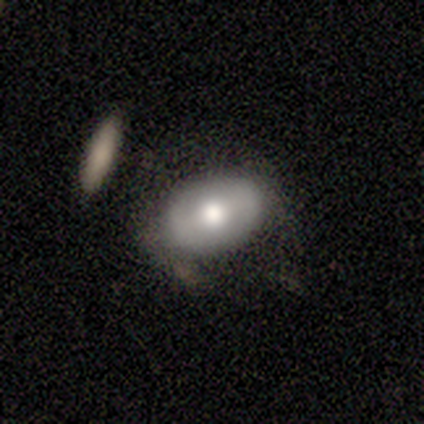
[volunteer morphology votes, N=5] Smooth or featured?
  - featured or disk: 60% *
  - smooth: 40%
  - star or artifact: 0%
Edge-on disk?
  - yes: 67% *
  - no: 33%
Edge-on bulge?
  - boxy: 50% * (tied)
  - rounded: 50% * (tied)
  - none: 0%
Merging?
  - minor disturbance: 80% *
  - none: 20%
  - major disturbance: 0%
  - merger: 0%